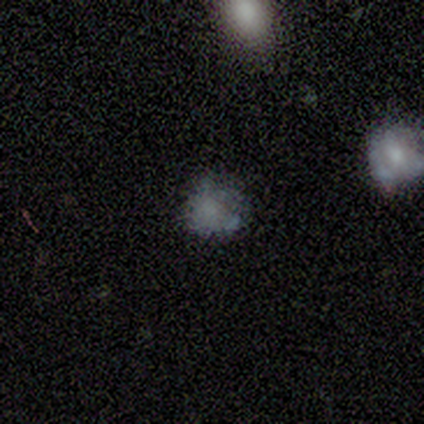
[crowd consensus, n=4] Smooth or featured? 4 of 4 (100%) said smooth. How rounded? 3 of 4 (75%) said round. Merging? 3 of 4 (75%) said none.